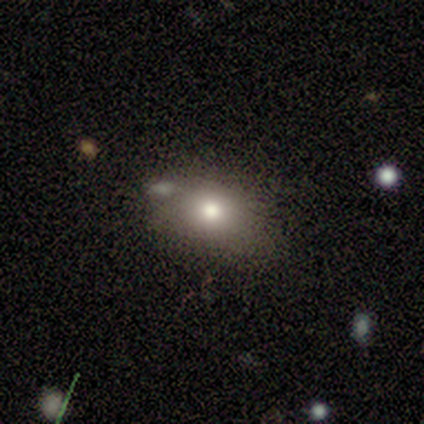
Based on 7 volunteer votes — This appears to be a smooth galaxy with no disk features (57%) that is round (75%). Merging: none (50%).